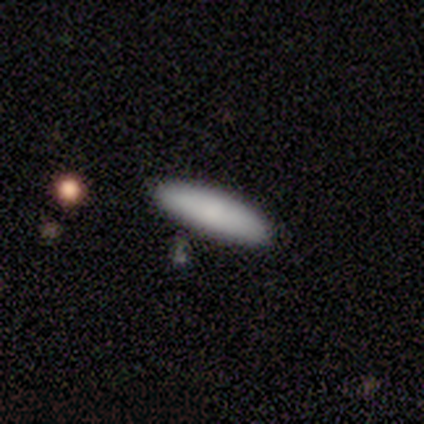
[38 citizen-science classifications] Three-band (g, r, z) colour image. It shows a smooth galaxy with no disk features (89%) that is cigar-shaped (71%). Merging: none (80%).